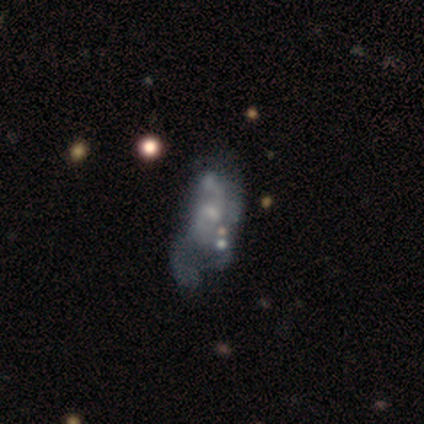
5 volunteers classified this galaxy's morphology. Smooth or featured? 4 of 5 (80%) said featured or disk. Edge-on disk? 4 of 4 (100%) said no. Bar? 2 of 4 (50%, tied with no) said weak. Spiral arms? 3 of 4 (75%) said yes. Spiral winding? 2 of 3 (67%) said medium. Spiral arm count? 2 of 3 (67%) said 2. Bulge size? 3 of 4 (75%) said small. Merging? 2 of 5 (40%, tied with merger) said major disturbance.